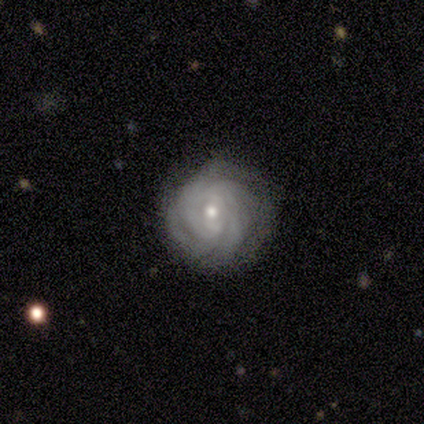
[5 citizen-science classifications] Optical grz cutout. It shows a featured or disk galaxy (100%) with no bar (100%), more than 4 (40%) tight (100%) spiral arms (100%) and a small central bulge (80%). Merging: none (100%).